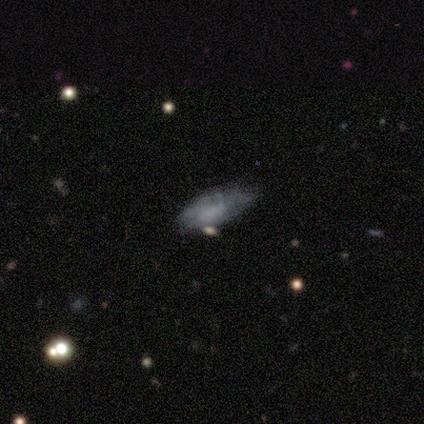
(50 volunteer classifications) Smooth or featured? 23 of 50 (46%, tied with featured or disk) said smooth. How rounded? 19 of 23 (83%) said in between. Merging? 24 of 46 (52%) said minor disturbance.